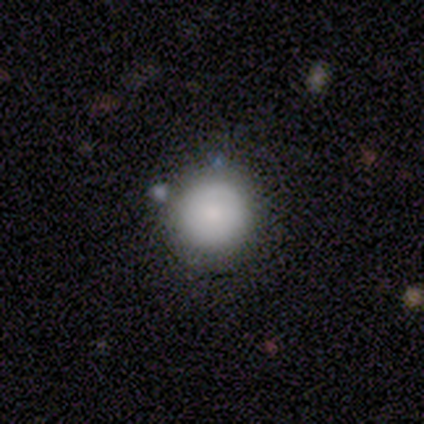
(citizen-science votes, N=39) Q: Smooth or featured?
A: smooth (64%); runner-up: star or artifact (21%)
Q: How rounded?
A: round (100%)
Q: Merging?
A: none (71%); runner-up: minor disturbance (26%)